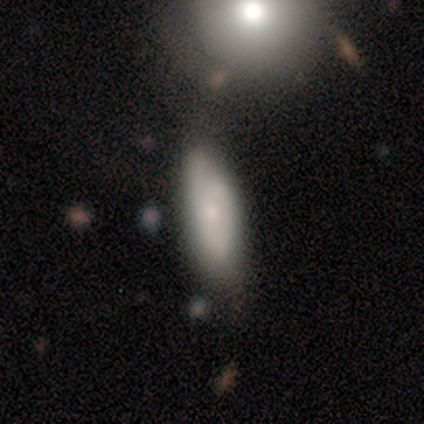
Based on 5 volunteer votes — smooth_or_featured: smooth (p=0.80) [alt: featured or disk p=0.20]
how_rounded: in between (p=0.50) [tied with: cigar-shaped p=0.50]
merging: none (p=0.80) [alt: merger p=0.20]